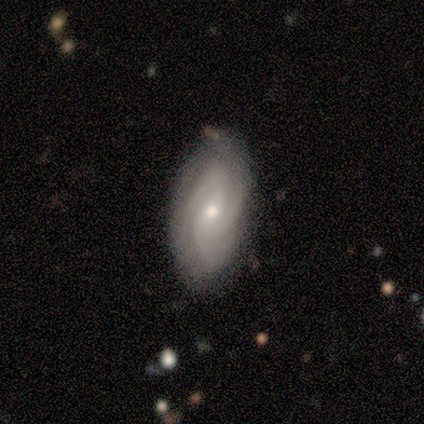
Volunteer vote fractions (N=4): Q: Smooth or featured?
A: featured or disk (100%)
Q: Edge-on disk?
A: no (100%)
Q: Bar?
A: weak (50%); runner-up: strong (25%)
Q: Spiral arms?
A: yes (100%)
Q: Spiral winding?
A: medium (75%); runner-up: tight (25%)
Q: Spiral arm count?
A: 3 (75%); runner-up: 2 (25%)
Q: Bulge size?
A: small (75%); runner-up: moderate (25%)
Q: Merging?
A: none (100%)